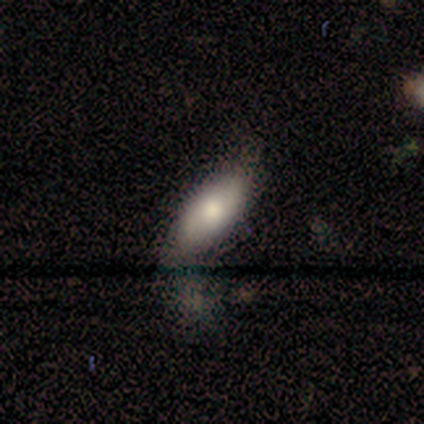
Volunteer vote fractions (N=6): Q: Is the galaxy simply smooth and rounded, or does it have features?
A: smooth — 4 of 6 (67%).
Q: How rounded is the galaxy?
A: in between — 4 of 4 (100%).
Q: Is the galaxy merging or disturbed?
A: minor disturbance — 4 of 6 (67%).